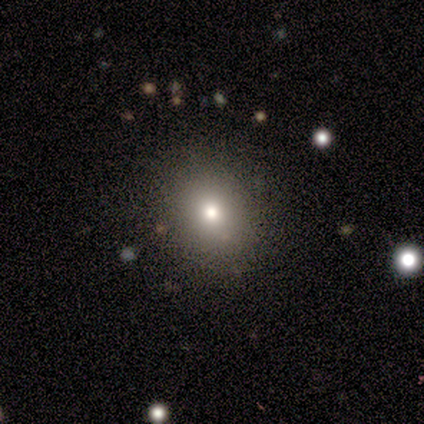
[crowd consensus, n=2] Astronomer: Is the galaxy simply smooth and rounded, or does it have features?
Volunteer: smooth — 100%.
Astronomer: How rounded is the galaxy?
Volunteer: round — 50%, tied with in between at 50%.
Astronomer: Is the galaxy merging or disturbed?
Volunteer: none — 100%.